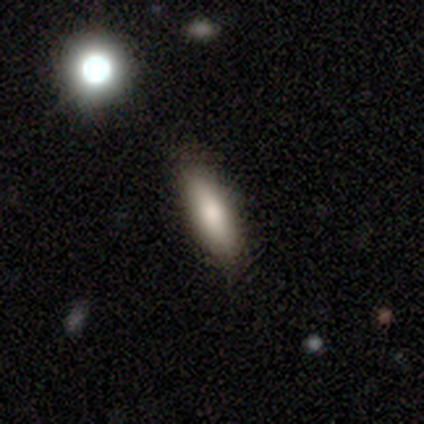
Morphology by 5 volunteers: type=smooth (80%); roundness=cigar-shaped (75%); merging=none (100%).